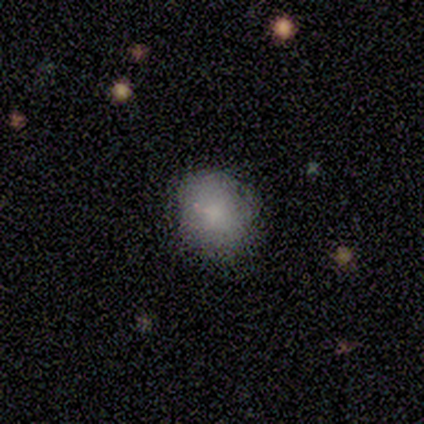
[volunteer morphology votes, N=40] This appears to be a smooth galaxy with no disk features (88%) that is in between round and cigar-shaped (54%). Merging: none (70%).